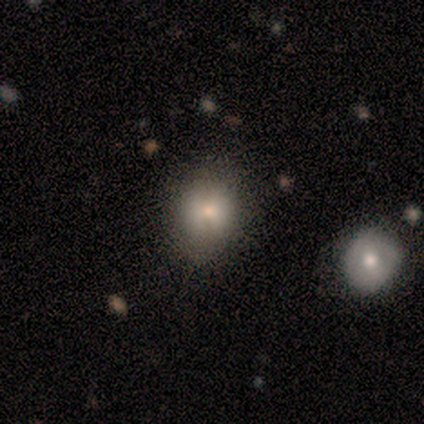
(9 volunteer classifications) This appears to be a smooth galaxy with no disk features (56%) that is round (60%). Merging: none (57%).